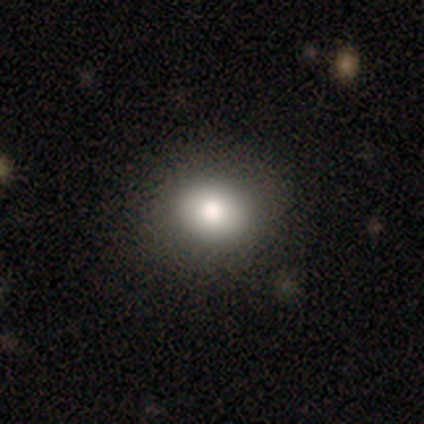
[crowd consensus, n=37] A smooth galaxy with no disk features (65%) that is in between round and cigar-shaped (54%). Merging: none (69%).